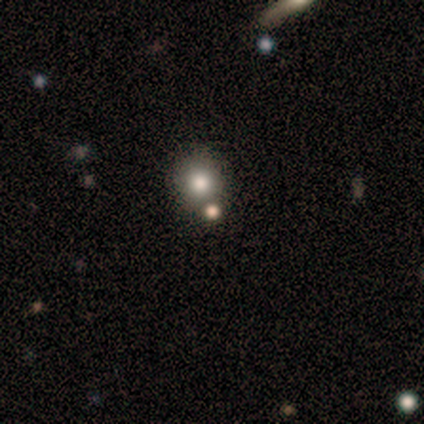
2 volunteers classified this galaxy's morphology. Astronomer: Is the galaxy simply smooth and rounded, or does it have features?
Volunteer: featured or disk — 50%, tied with star or artifact at 50%.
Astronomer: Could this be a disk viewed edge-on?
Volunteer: no — 100%.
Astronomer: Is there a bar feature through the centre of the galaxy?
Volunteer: no — 100%.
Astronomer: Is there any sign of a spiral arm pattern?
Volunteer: no — 100%.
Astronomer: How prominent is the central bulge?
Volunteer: moderate — 100%.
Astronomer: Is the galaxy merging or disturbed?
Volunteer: none — 100%.